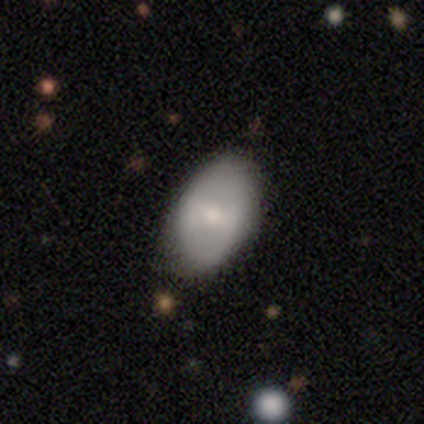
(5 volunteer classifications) This appears to be a featured or disk galaxy (60%) with a weak bar (100%), no spiral arms (67%) and a moderate central bulge (67%). Merging: none (60%).